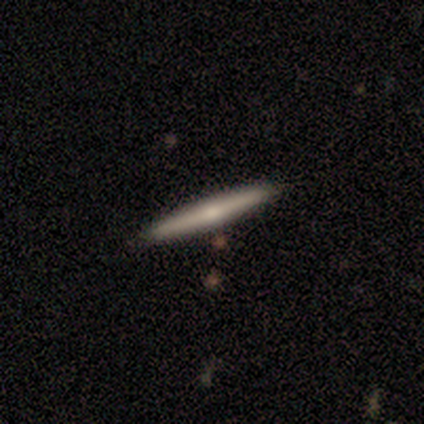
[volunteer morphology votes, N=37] This appears to be a smooth galaxy with no disk features (62%) that is cigar-shaped (100%). Merging: none (95%).